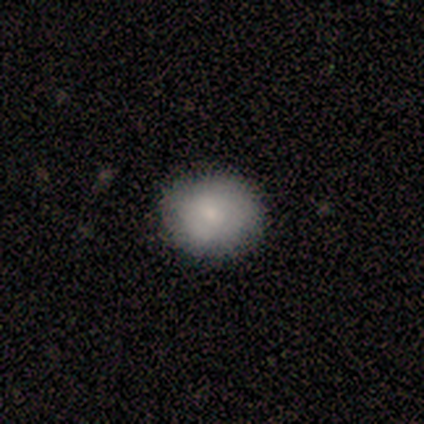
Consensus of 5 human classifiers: Smooth or featured? 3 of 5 (60%) said smooth. How rounded? 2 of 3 (67%) said round. Merging? 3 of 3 (100%) said none.